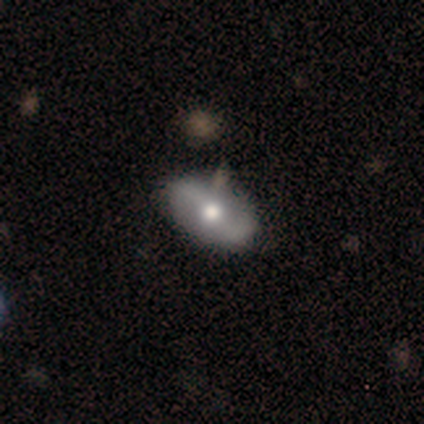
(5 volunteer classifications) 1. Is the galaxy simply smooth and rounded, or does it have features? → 60% featured or disk, 40% smooth, 0% star or artifact.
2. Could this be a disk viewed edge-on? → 100% no, 0% yes.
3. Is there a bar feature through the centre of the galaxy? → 100% no, 0% strong, 0% weak.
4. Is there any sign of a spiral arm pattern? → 100% yes, 0% no.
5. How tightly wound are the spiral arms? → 67% medium, 33% loose, 0% tight.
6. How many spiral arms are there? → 100% 2, 0% 1, 0% 3, 0% 4, 0% more than 4, 0% can't tell.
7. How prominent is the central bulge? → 100% moderate, 0% dominant, 0% large, 0% small, 0% none.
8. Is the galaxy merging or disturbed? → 80% none, 20% major disturbance, 0% minor disturbance, 0% merger.